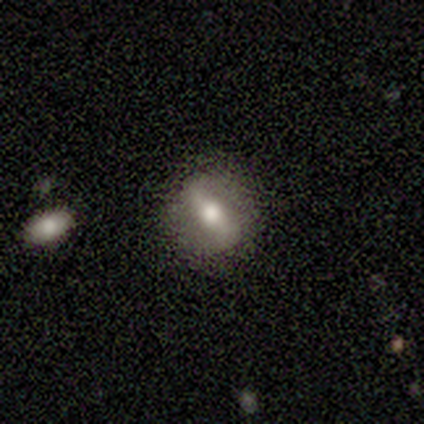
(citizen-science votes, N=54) smooth_or_featured: featured or disk (p=0.57) [alt: smooth p=0.31]
disk_edge_on: no (p=0.81) [alt: yes p=0.19]
bar: strong (p=0.48) [alt: weak p=0.32]
has_spiral_arms: no (p=0.68) [alt: yes p=0.32]
bulge_size: moderate (p=0.72) [alt: large p=0.16]
merging: none (p=0.75) [alt: minor disturbance p=0.15]